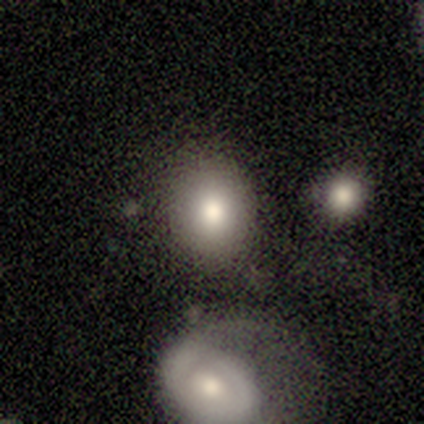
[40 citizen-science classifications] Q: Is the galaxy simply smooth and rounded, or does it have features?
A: smooth — 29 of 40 (72%).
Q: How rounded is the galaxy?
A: round — 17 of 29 (59%).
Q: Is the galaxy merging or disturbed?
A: none — 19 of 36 (53%).